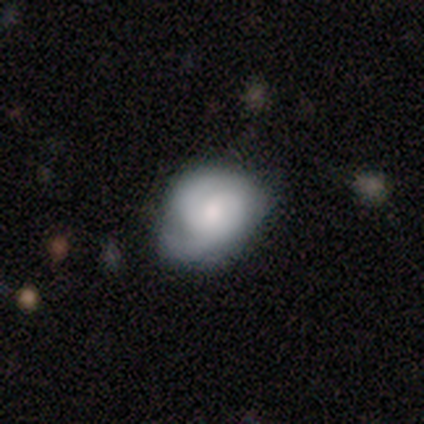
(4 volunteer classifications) smooth_or_featured: smooth (p=0.50) [tied with: featured or disk p=0.50]
how_rounded: round (p=0.50) [tied with: in between p=0.50]
merging: none (p=0.50) [tied with: minor disturbance p=0.50]